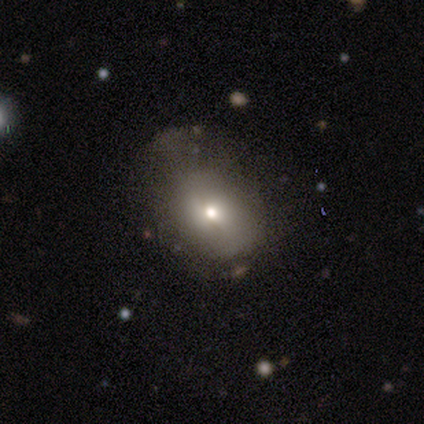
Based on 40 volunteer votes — This appears to be a smooth galaxy with no disk features (50%) that is in between round and cigar-shaped (55%). Merging: none (25%, tied with major disturbance).